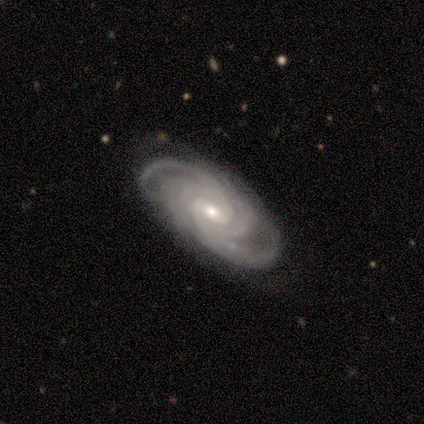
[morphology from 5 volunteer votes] type=featured or disk (100%); edge-on=no (100%); bar=weak (80%); spiral arms=yes (100%); winding=tight (60%); arm count=4 (60%); bulge=moderate (60%); merging=none (80%).